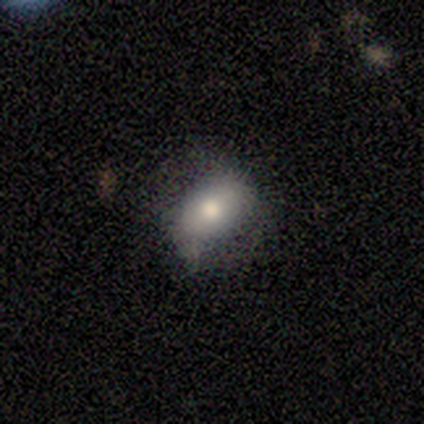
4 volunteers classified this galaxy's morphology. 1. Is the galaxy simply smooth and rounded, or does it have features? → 100% smooth, 0% featured or disk, 0% star or artifact.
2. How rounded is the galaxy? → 75% in between, 25% round, 0% cigar-shaped.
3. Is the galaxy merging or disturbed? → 75% minor disturbance, 25% none, 0% major disturbance, 0% merger.